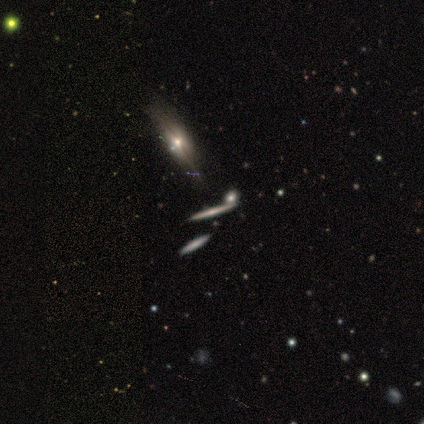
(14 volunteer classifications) smooth_or_featured: featured or disk (p=0.71) [alt: smooth p=0.14]
disk_edge_on: yes (p=0.90) [alt: no p=0.10]
edge_on_bulge: rounded (p=0.56) [alt: none p=0.44]
merging: none (p=0.75) [alt: minor disturbance p=0.08]